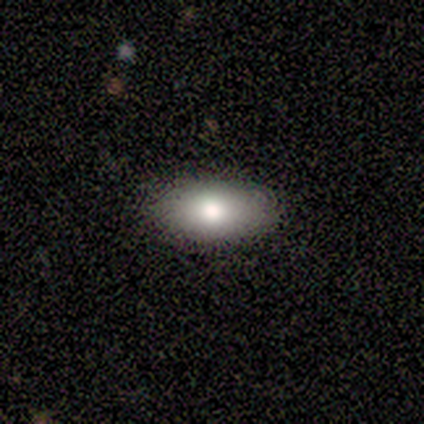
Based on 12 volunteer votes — smooth_or_featured: smooth (p=0.92) [alt: star or artifact p=0.08]
how_rounded: in between (p=0.91) [alt: round p=0.09]
merging: none (p=1.00)